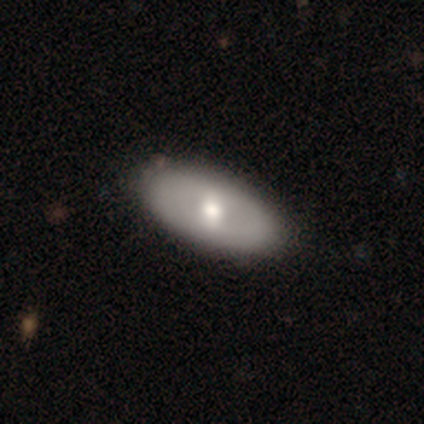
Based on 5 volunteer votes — Smooth or featured? smooth (40%, tied with featured or disk)
How rounded? in between (100%)
Merging? none (75%)